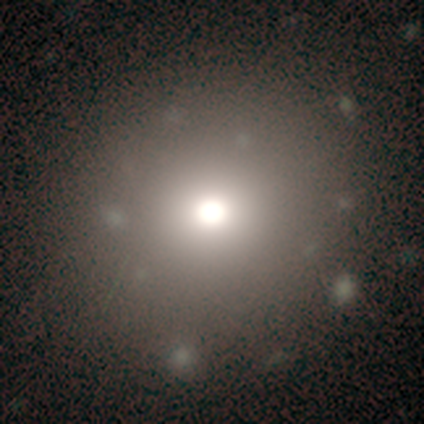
Overall: smooth (60%; featured or disk 20%). How rounded: round (67%; in between 33%). Merging: none (100%).